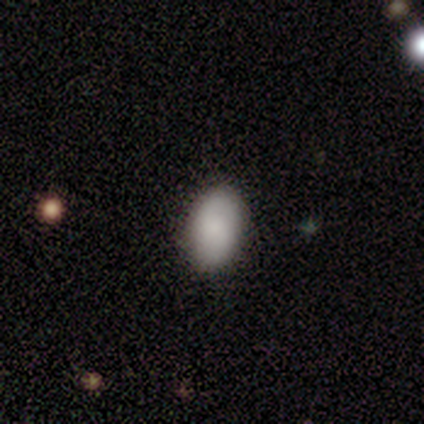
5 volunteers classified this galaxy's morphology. smooth 100%, featured or disk 0%, star or artifact 0%. Down the decision tree: how rounded — in between (100%); merging — none (100%).